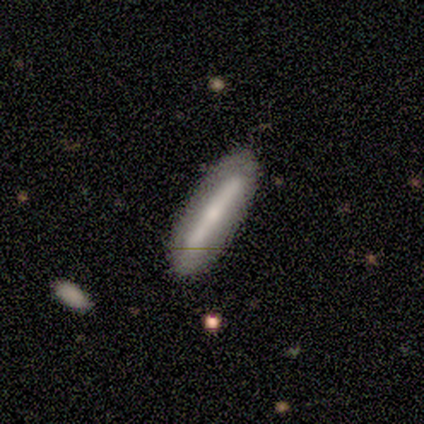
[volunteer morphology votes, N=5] smooth-or-featured: smooth: 80% | featured or disk: 20% | star or artifact: 0%
  how-rounded: cigar-shaped: 100% | round: 0% | in between: 0%
  merging: none: 80% | minor disturbance: 20% | major disturbance: 0% | merger: 0%